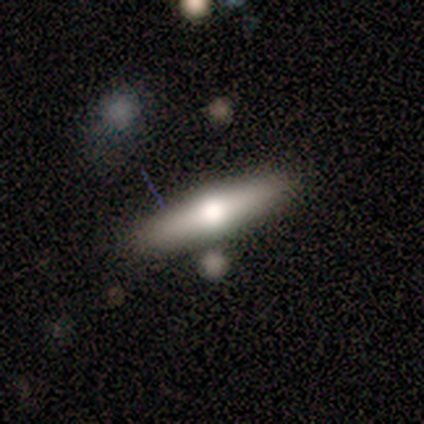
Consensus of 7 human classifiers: Volunteers were most divided on "edge-on disk": yes: 83%, no: 17%. More confident: edge-on bulge — rounded (100%); merging — none (100%); smooth or featured — featured or disk (86%).